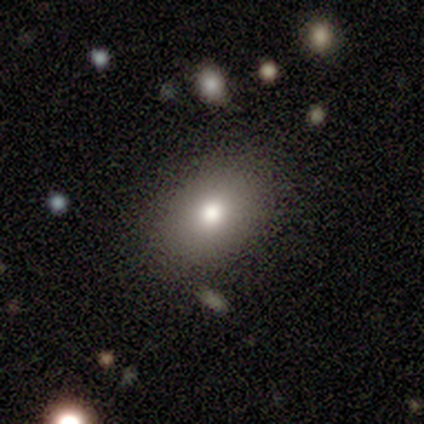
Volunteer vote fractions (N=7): Q: Smooth or featured?
A: smooth (71%); runner-up: featured or disk (29%)
Q: How rounded?
A: in between (60%); runner-up: round (40%)
Q: Merging?
A: none (100%)